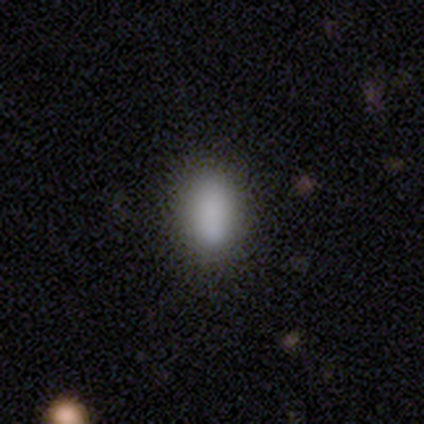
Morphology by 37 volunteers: Smooth or featured?
  - smooth: 86% *
  - star or artifact: 8%
  - featured or disk: 5%
How rounded?
  - in between: 88% *
  - cigar-shaped: 9%
  - round: 3%
Merging?
  - none: 59% *
  - minor disturbance: 12%
  - major disturbance: 0%
  - merger: 0%